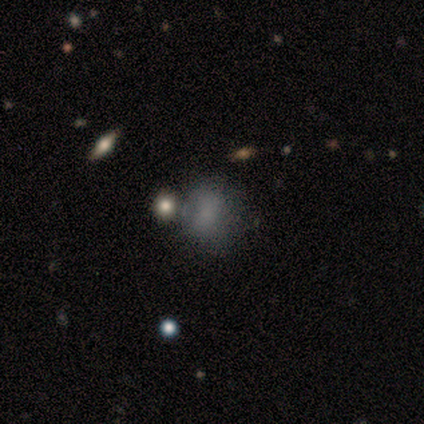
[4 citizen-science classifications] This is clearly a smooth galaxy (100%). How rounded: possibly round (50%, tied with in between). Merging: possibly minor disturbance (50%).